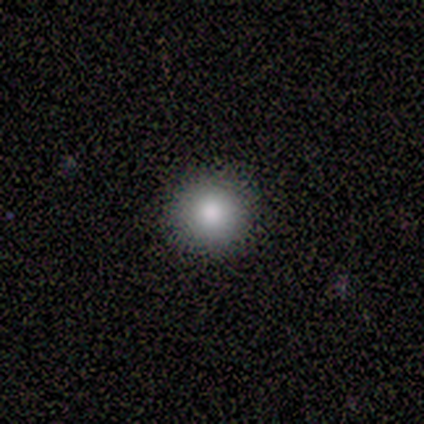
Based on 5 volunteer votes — Smooth or featured? smooth (100%)
How rounded? round (100%)
Merging? none (100%)